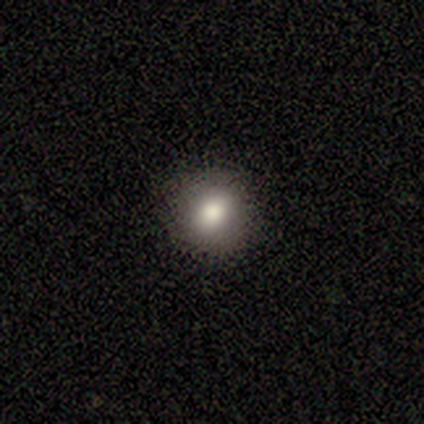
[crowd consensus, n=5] This appears to be a smooth galaxy with no disk features (100%) that is round (100%). Merging: none (100%).